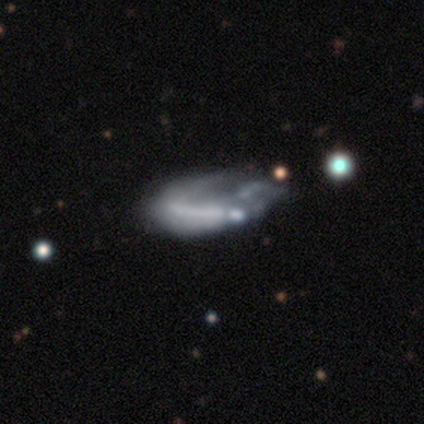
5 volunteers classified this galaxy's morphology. A smooth galaxy with no disk features (40%, tied with star or artifact) that is in between round and cigar-shaped (100%). Merging: major disturbance (67%).